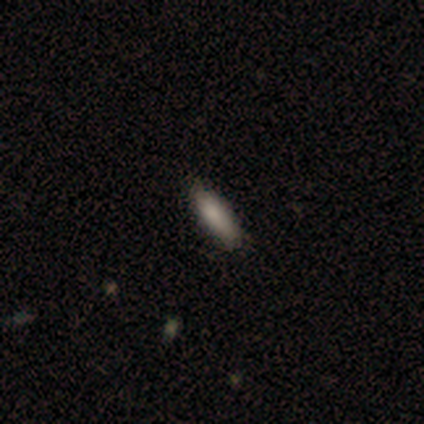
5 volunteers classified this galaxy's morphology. A smooth galaxy with no disk features (100%) that is cigar-shaped (60%). Merging: minor disturbance (60%).